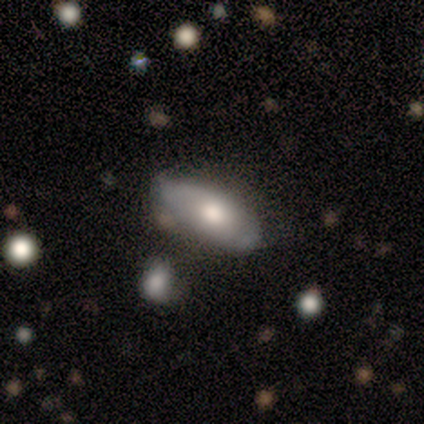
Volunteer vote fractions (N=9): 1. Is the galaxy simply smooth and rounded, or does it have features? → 89% smooth, 11% featured or disk, 0% star or artifact.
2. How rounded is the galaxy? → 88% in between, 12% cigar-shaped, 0% round.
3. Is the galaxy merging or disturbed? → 67% none, 22% minor disturbance, 11% major disturbance, 0% merger.